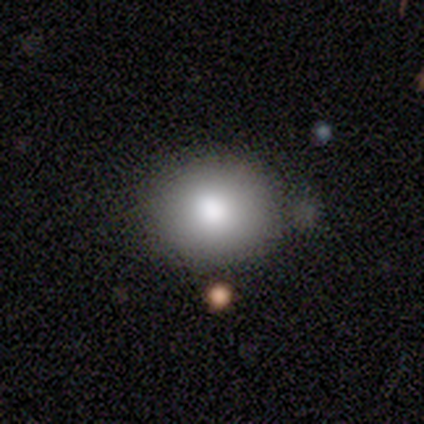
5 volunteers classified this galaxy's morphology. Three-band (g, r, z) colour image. It shows a smooth galaxy with no disk features (100%) that is round (60%). Merging: none (80%).